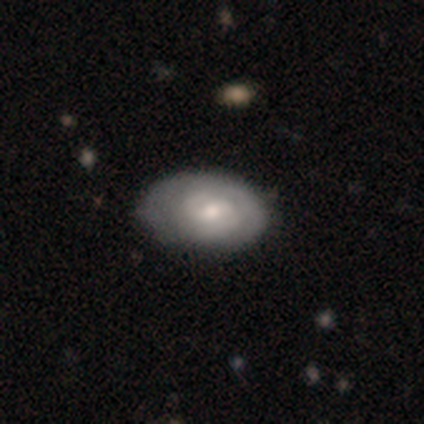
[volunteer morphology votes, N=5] Smooth or featured? featured or disk (60%)
Edge-on disk? no (100%)
Bar? weak (100%)
Spiral arms? yes (67%)
Spiral winding? tight (50%, tied with medium)
Spiral arm count? 2 (50%, tied with 3)
Bulge size? moderate (67%)
Merging? minor disturbance (75%)